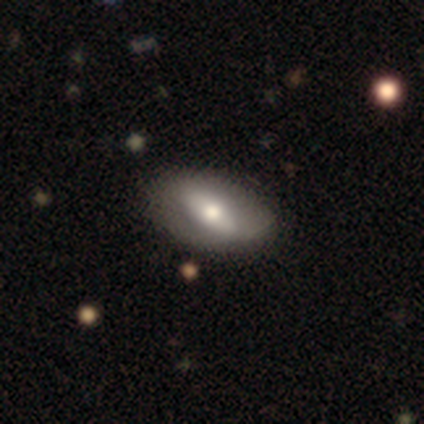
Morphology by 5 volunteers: Smooth or featured: smooth — 60% (featured or disk — 40%)
How rounded: in between — 100%
Merging: none — 80% (minor disturbance — 20%)